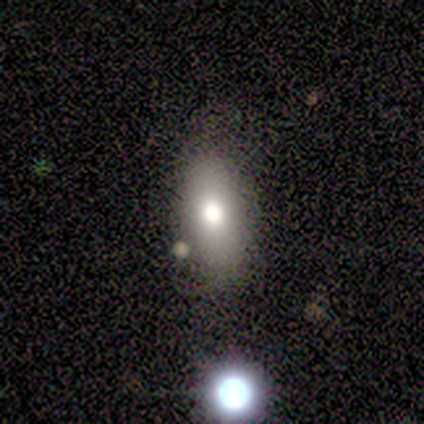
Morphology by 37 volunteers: Q: Smooth or featured?
A: smooth (68%); runner-up: featured or disk (19%)
Q: How rounded?
A: in between (88%); runner-up: cigar-shaped (8%)
Q: Merging?
A: none (69%); runner-up: minor disturbance (16%)